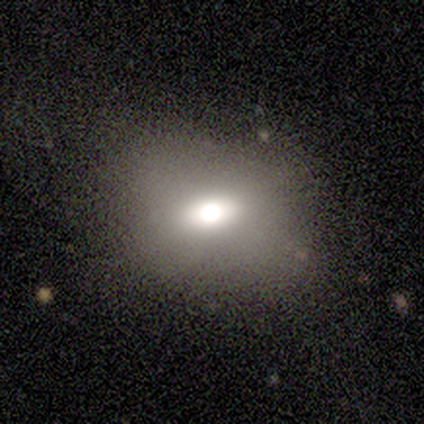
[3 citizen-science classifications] Smooth or featured?
  - featured or disk: 67% *
  - smooth: 33%
  - star or artifact: 0%
Edge-on disk?
  - no: 100% *
  - yes: 0%
Bar?
  - weak: 50% * (tied)
  - no: 50% * (tied)
  - strong: 0%
Spiral arms?
  - no: 100% *
  - yes: 0%
Bulge size?
  - large: 50% * (tied)
  - moderate: 50% * (tied)
  - dominant: 0%
  - small: 0%
  - none: 0%
Merging?
  - none: 67% *
  - major disturbance: 33%
  - minor disturbance: 0%
  - merger: 0%